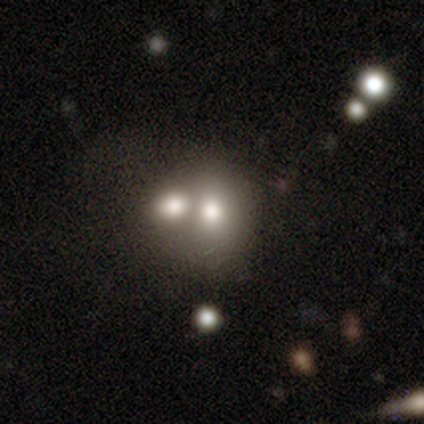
Smooth or featured? smooth (69%)
How rounded? round (57%)
Merging? merger (65%)